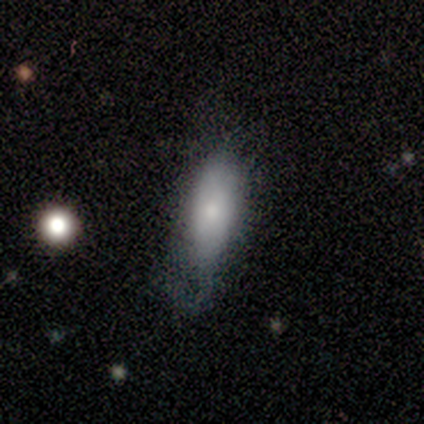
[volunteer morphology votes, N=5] Smooth or featured? 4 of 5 (80%) said smooth. How rounded? 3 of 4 (75%) said in between. Merging? 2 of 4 (50%, tied with major disturbance) said none.